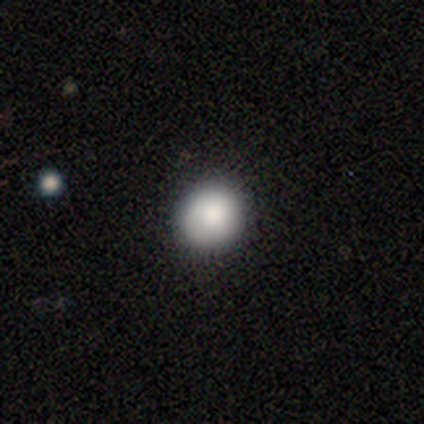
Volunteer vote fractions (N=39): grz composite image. It shows a smooth galaxy with no disk features (85%) that is round (91%). Merging: none (86%).